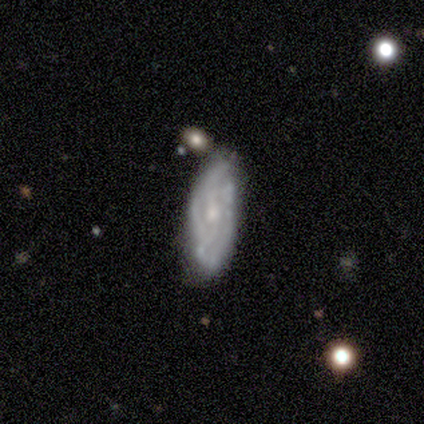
Overall: featured or disk (80%). Edge-on disk: no (100%). Bar: no (75%). Spiral arms: yes (75%). Spiral arm count: more than 4 (67%; 2 33%). Spiral winding: tight (67%; medium 33%). Bulge size: moderate (50%, tied with small). Merging: none (80%).